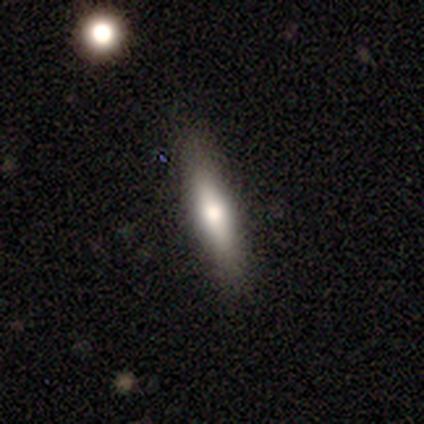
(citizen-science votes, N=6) Overall: smooth (83%). How rounded: cigar-shaped (60%; in between 40%). Merging: none (100%).